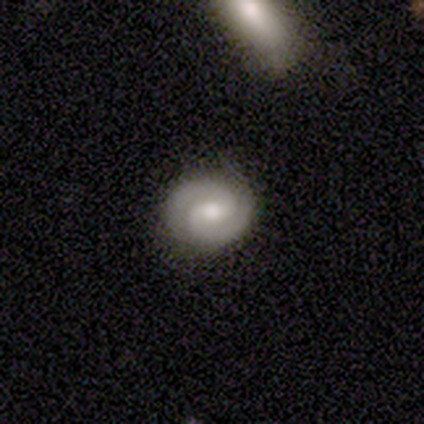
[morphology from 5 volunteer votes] type=featured or disk (80%); edge-on=no (100%); bar=no (75%); spiral arms=yes (100%); winding=medium (50%); arm count=2 (100%); bulge=moderate (75%); merging=none (80%).